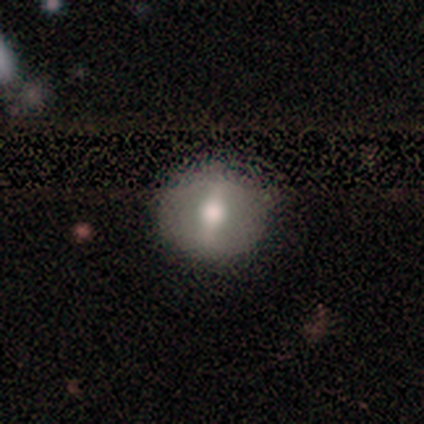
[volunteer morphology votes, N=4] This appears to be a smooth galaxy with no disk features (50%, tied with featured or disk) that is round (100%). Merging: none (100%).